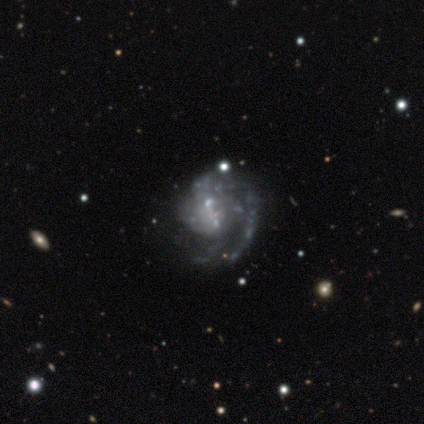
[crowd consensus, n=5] smooth-or-featured: featured or disk: 80% | smooth: 20% | star or artifact: 0%
  disk-edge-on: no: 100% | yes: 0%
    bar: no: 75% | strong: 25% | weak: 0%
    has-spiral-arms: yes: 100% | no: 0%
      spiral-winding: tight: 50% | medium: 25% | loose: 25%
      spiral-arm-count: 1: 50% | 3: 25% | can't tell: 25% | 2: 0% | 4: 0% | more than 4: 0%
    bulge-size: small: 75% | none: 25% | dominant: 0% | large: 0% | moderate: 0%
  merging: none: 60% | major disturbance: 20% | merger: 20% | minor disturbance: 0%